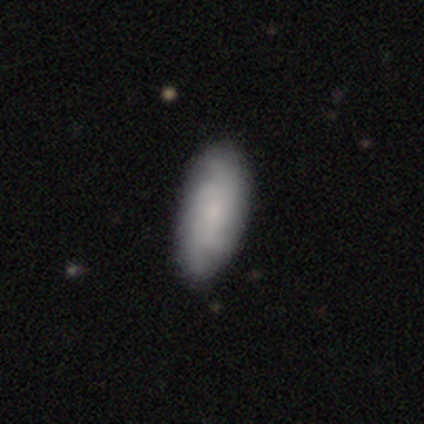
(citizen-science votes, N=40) A smooth galaxy with no disk features (48%, tied with featured or disk) that is in between round and cigar-shaped (95%). Merging: none (55%).